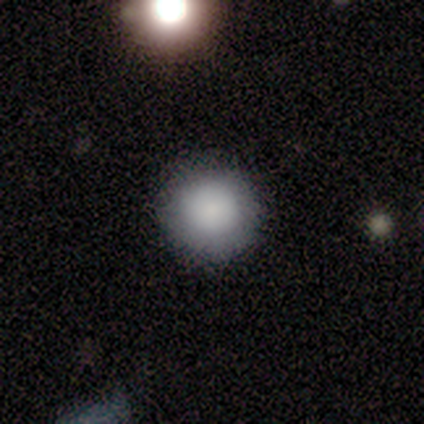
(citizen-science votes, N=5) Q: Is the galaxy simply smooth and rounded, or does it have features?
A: smooth — 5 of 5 (100%).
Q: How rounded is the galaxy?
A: round — 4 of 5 (80%).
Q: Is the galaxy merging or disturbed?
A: none — 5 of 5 (100%).